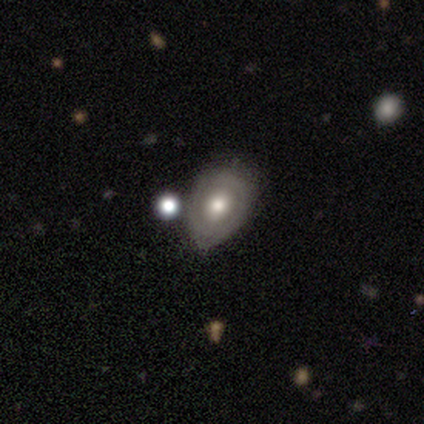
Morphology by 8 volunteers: Smooth or featured? 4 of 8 (50%, tied with featured or disk) said smooth. How rounded? 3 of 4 (75%) said round. Merging? 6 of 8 (75%) said minor disturbance.